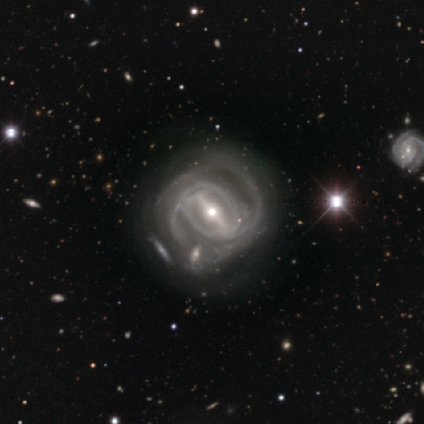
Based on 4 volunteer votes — Smooth or featured? 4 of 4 (100%) said featured or disk. Edge-on disk? 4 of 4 (100%) said no. Bar? 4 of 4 (100%) said strong. Spiral arms? 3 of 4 (75%) said yes. Spiral winding? 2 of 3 (67%) said medium. Spiral arm count? 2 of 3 (67%) said 2. Bulge size? 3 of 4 (75%) said moderate. Merging? 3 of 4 (75%) said minor disturbance.